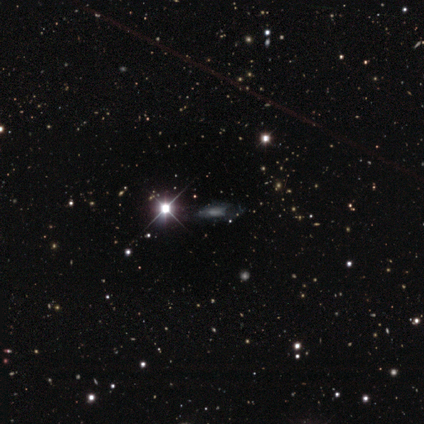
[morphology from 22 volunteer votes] Smooth or featured? featured or disk (41%)
Edge-on disk? no (78%)
Bar? no (57%)
Spiral arms? no (57%)
Bulge size? moderate (57%)
Merging? none (60%)